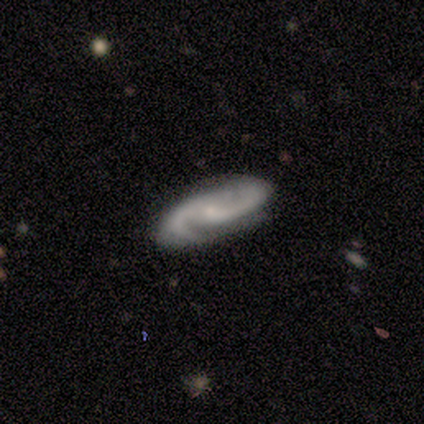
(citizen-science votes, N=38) smooth_or_featured: featured or disk (p=0.95) [alt: smooth p=0.03]
disk_edge_on: no (p=0.92) [alt: yes p=0.08]
bar: no (p=0.58) [alt: weak p=0.36]
has_spiral_arms: yes (p=1.00)
spiral_winding: medium (p=0.58) [alt: tight p=0.24]
spiral_arm_count: 2 (p=1.00)
bulge_size: small (p=0.70) [alt: moderate p=0.15]
merging: none (p=0.89) [alt: minor disturbance p=0.11]